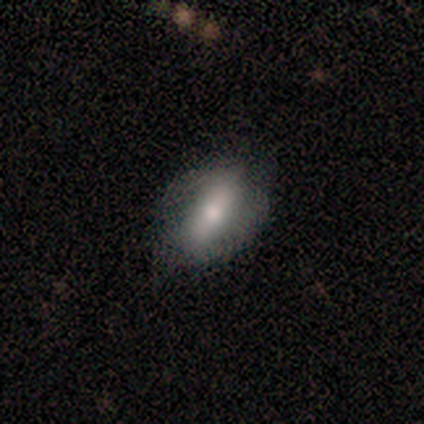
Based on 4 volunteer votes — Smooth or featured?
  - smooth: 50% * (tied)
  - featured or disk: 50% * (tied)
  - star or artifact: 0%
How rounded?
  - in between: 50% * (tied)
  - cigar-shaped: 50% * (tied)
  - round: 0%
Merging?
  - none: 75% *
  - minor disturbance: 25%
  - major disturbance: 0%
  - merger: 0%